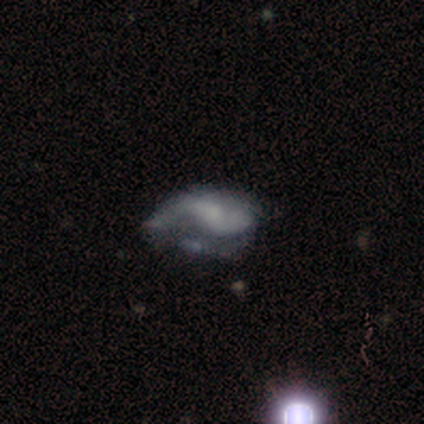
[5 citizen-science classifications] Volunteers were most divided on "spiral arm count" (2-way tie): 2: 50%, can't tell: 50%, 1: 0%, 3: 0%, 4: 0%, more than 4: 0%; "bulge size" (2-way tie): small: 50%, none: 50%, dominant: 0%, large: 0%, moderate: 0%. More confident: edge-on disk — no (100%); spiral arms — yes (100%); smooth or featured — featured or disk (80%); bar — no (75%); spiral winding — loose (75%); merging — major disturbance (60%).